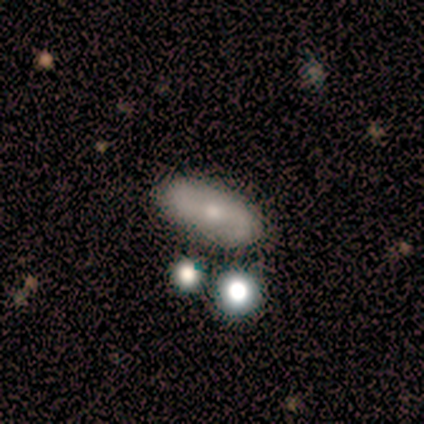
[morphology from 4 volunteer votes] A smooth galaxy with no disk features (50%, tied with featured or disk) that is in between round and cigar-shaped (100%). Merging: none (75%).